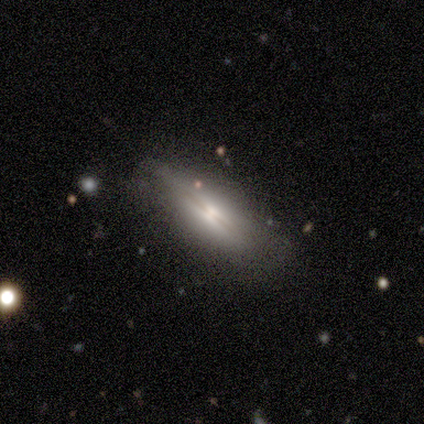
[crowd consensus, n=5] smooth-or-featured: featured or disk: 60% | smooth: 20% | star or artifact: 20%
  disk-edge-on: yes: 67% | no: 33%
    edge-on-bulge: boxy: 50% (tied) | rounded: 50% (tied) | none: 0%
  merging: none: 75% | minor disturbance: 25% | major disturbance: 0% | merger: 0%